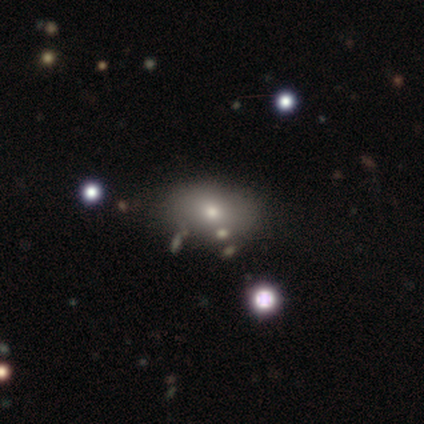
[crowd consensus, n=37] Overall: smooth (81%). How rounded: in between (80%). Merging: none (68%).